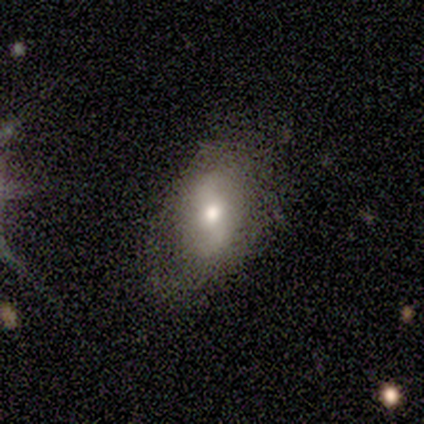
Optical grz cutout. It shows a smooth galaxy with no disk features (100%) that is in between round and cigar-shaped (80%). Merging: none (60%).